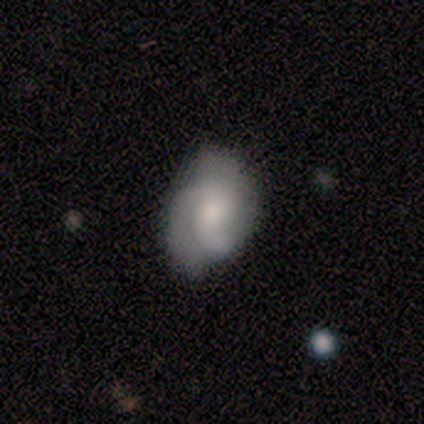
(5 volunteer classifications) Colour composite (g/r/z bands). It shows a smooth galaxy with no disk features (60%) that is in between round and cigar-shaped (100%). Merging: minor disturbance (60%).